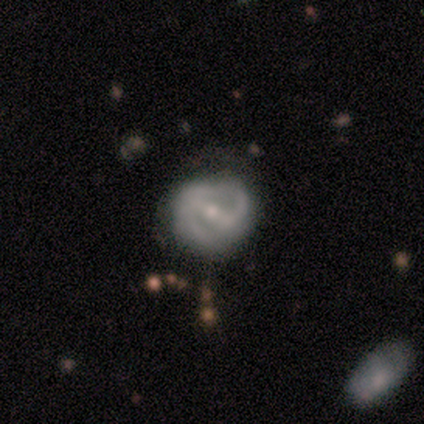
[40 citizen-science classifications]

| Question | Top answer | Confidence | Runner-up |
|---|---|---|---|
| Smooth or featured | featured or disk | 82% | smooth (15%) |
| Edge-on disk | no | 94% | yes (6%) |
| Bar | strong | 52% | weak (48%) |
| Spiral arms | yes | 84% | no (16%) |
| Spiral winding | medium | 42% | tight (35%) |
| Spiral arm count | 2 | 73% | can't tell (23%) |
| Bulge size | moderate | 61% | small (35%) |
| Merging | none | 67% | minor disturbance (23%) |